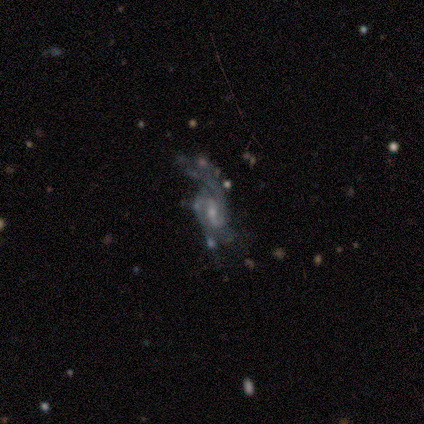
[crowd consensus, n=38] smooth_or_featured: featured or disk (p=0.84) [alt: smooth p=0.11]
disk_edge_on: no (p=1.00)
bar: weak (p=0.50) [alt: no p=0.38]
has_spiral_arms: yes (p=0.91) [alt: no p=0.09]
spiral_winding: loose (p=0.52) [alt: medium p=0.34]
spiral_arm_count: 2 (p=0.41) [alt: can't tell p=0.28]
bulge_size: small (p=0.59) [alt: moderate p=0.25]
merging: none (p=0.39) [alt: major disturbance p=0.36]